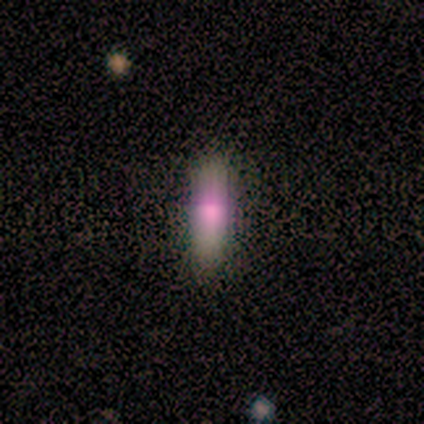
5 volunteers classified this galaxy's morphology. smooth_or_featured: smooth (p=0.40) [tied with: star or artifact p=0.40]
how_rounded: in between (p=1.00)
merging: none (p=0.67) [alt: minor disturbance p=0.33]